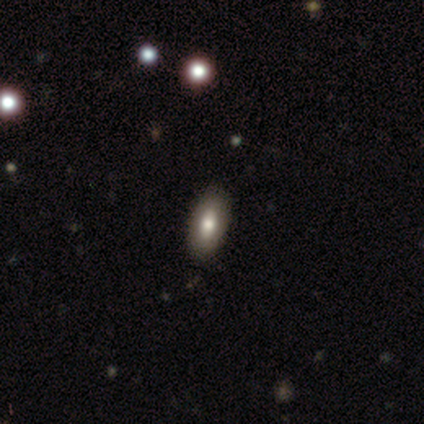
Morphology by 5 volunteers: type=smooth (80%); roundness=in between (100%); merging=none (100%).